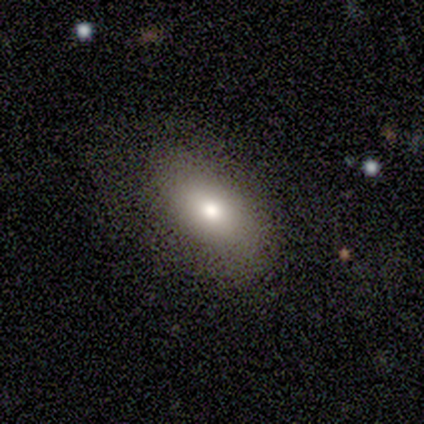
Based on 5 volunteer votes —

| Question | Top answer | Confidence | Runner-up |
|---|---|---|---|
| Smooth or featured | smooth | 80% | featured or disk (20%) |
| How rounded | in between | 100% | — |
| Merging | none | 60% | minor disturbance (20%) |